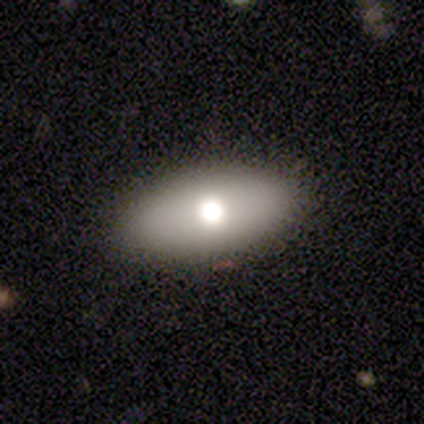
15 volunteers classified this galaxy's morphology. A smooth galaxy with no disk features (73%) that is in between round and cigar-shaped (82%).

Vote fractions:
- Smooth or featured? smooth: 73% / featured or disk: 20% / star or artifact: 7%
- How rounded? in between: 82% / round: 9% / cigar-shaped: 9%
- Merging? none: 100% / minor disturbance: 0% / major disturbance: 0% / merger: 0%